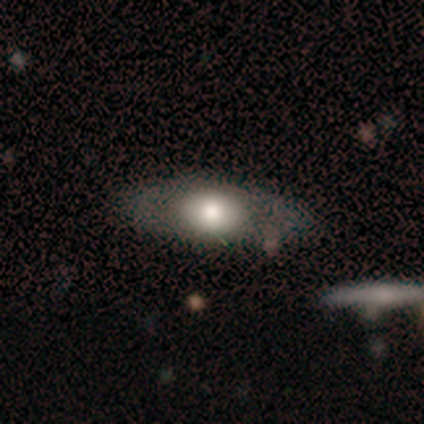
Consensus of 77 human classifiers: Overall: smooth (64%; featured or disk 34%). How rounded: in between (88%). Merging: none (39%; minor disturbance 8%).